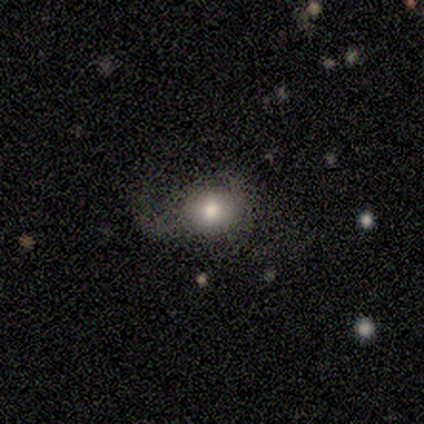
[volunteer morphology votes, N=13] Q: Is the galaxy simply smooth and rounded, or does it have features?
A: smooth — 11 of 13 (85%).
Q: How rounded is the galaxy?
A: round — 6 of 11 (55%).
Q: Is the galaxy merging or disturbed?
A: minor disturbance — 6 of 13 (46%).